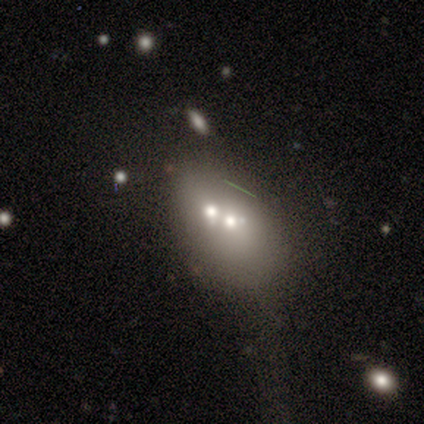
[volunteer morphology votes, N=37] A smooth galaxy with no disk features (49%) that is in between round and cigar-shaped (61%). Merging: merger (73%).